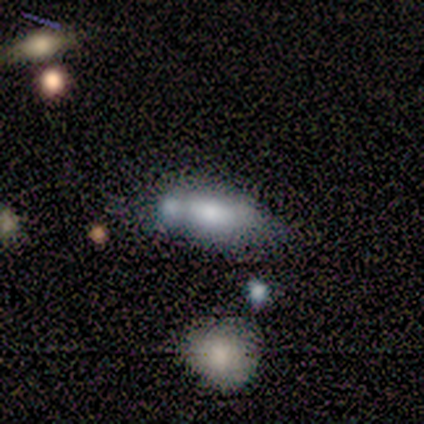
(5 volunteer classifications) Q: Smooth or featured?
A: smooth (80%); runner-up: star or artifact (20%)
Q: How rounded?
A: in between (100%)
Q: Merging?
A: merger (50%); runner-up: none (25%)